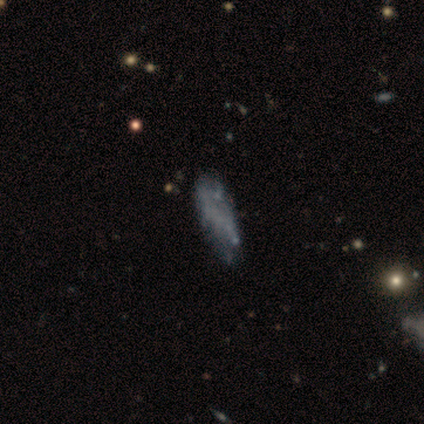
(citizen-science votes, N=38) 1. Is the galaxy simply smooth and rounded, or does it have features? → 55% featured or disk, 37% smooth, 8% star or artifact.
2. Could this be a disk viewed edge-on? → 86% no, 14% yes.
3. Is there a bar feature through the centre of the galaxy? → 94% no, 6% weak, 0% strong.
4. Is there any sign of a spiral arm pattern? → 89% no, 11% yes.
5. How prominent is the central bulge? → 94% none, 6% small, 0% dominant, 0% large, 0% moderate.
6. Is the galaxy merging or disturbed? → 43% none, 31% minor disturbance, 17% major disturbance, 9% merger.